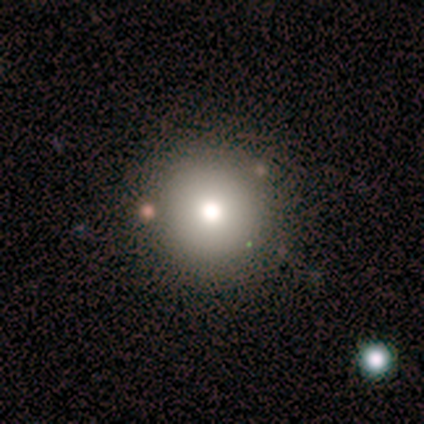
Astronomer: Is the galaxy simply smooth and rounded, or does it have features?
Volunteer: smooth — 60%.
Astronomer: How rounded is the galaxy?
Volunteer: round — 67%.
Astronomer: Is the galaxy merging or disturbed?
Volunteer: none — 75%.